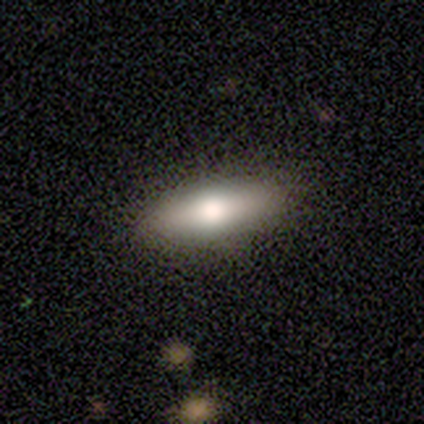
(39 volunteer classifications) smooth_or_featured: smooth (p=0.85) [alt: featured or disk p=0.08]
how_rounded: in between (p=0.67) [alt: cigar-shaped p=0.33]
merging: none (p=0.78)